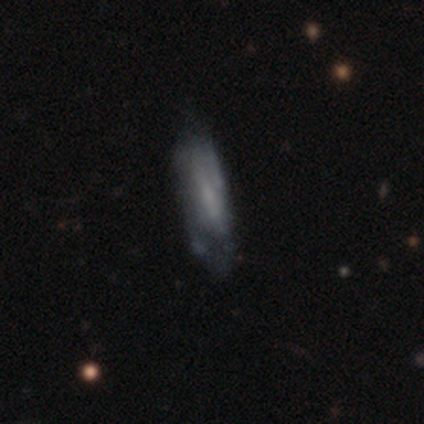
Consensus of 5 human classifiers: smooth-or-featured: smooth: 80% | featured or disk: 20% | star or artifact: 0%
  how-rounded: in between: 50% (tied) | cigar-shaped: 50% (tied) | round: 0%
  merging: none: 60% | minor disturbance: 20% | major disturbance: 20% | merger: 0%